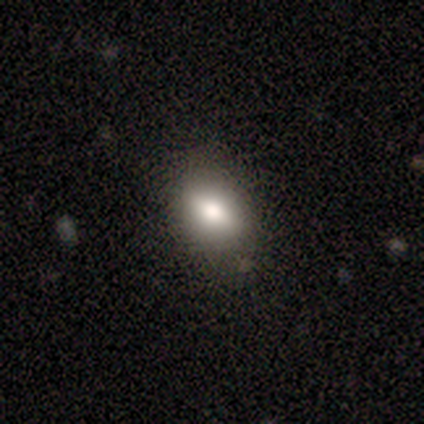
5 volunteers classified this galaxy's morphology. This appears to be a smooth galaxy with no disk features (100%) that is round (60%). Merging: none (100%).